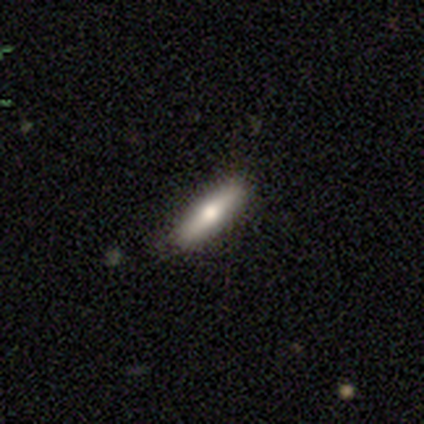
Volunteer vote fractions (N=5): Smooth or featured?
  - smooth: 100% *
  - featured or disk: 0%
  - star or artifact: 0%
How rounded?
  - cigar-shaped: 60% *
  - in between: 40%
  - round: 0%
Merging?
  - none: 100% *
  - minor disturbance: 0%
  - major disturbance: 0%
  - merger: 0%